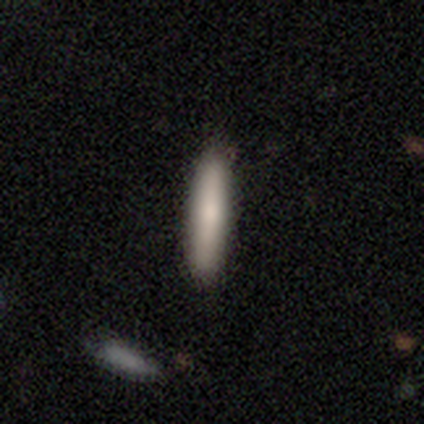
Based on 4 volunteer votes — Overall: smooth (75%). How rounded: cigar-shaped (100%). Merging: none (75%).